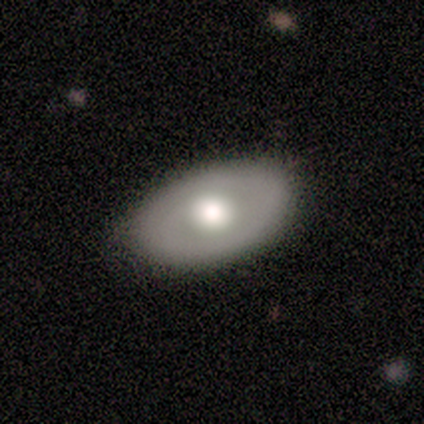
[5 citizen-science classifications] Smooth or featured? 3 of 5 (60%) said smooth. How rounded? 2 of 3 (67%) said in between. Merging? 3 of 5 (60%) said none.